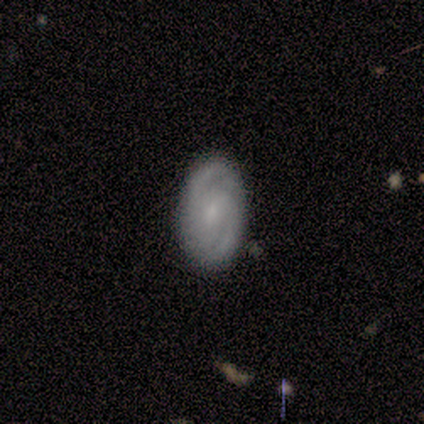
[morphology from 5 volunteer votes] smooth-or-featured: featured or disk: 60% | smooth: 40% | star or artifact: 0%
  disk-edge-on: no: 100% | yes: 0%
    bar: weak: 67% | no: 33% | strong: 0%
    has-spiral-arms: yes: 67% | no: 33%
      spiral-winding: tight: 50% (tied) | medium: 50% (tied) | loose: 0%
      spiral-arm-count: 2: 100% | 1: 0% | 3: 0% | 4: 0% | more than 4: 0% | can't tell: 0%
    bulge-size: moderate: 33% (tied) | small: 33% (tied) | none: 33% (tied) | dominant: 0% | large: 0%
  merging: none: 60% | minor disturbance: 40% | major disturbance: 0% | merger: 0%